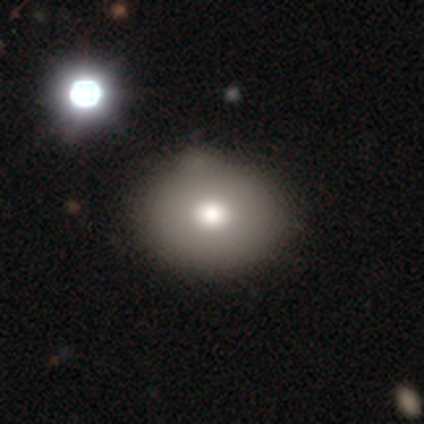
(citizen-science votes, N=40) This is likely a smooth galaxy (68%). How rounded: likely round (63%). Merging: marginally none (44%).